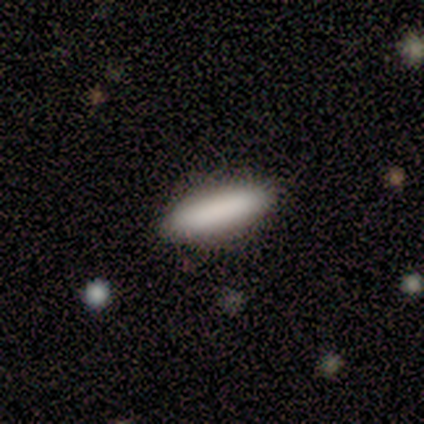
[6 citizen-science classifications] This appears to be a smooth galaxy with no disk features (100%) that is in between round and cigar-shaped (50%, tied with cigar-shaped). Merging: none (83%).